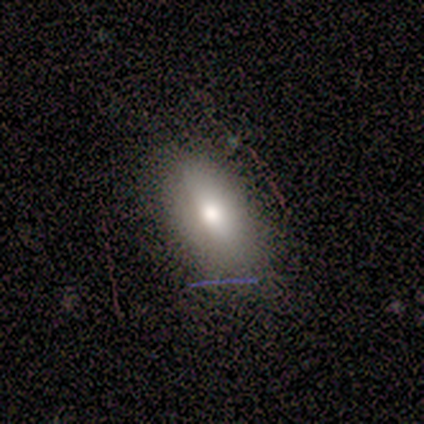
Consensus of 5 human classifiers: Q: Smooth or featured?
A: smooth (80%); runner-up: featured or disk (20%)
Q: How rounded?
A: in between (100%)
Q: Merging?
A: none (80%); runner-up: major disturbance (20%)